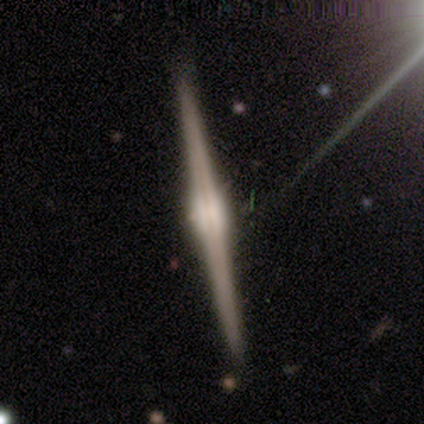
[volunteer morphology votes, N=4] Smooth or featured?
  - smooth: 50% * (tied)
  - featured or disk: 50% * (tied)
  - star or artifact: 0%
How rounded?
  - cigar-shaped: 100% *
  - round: 0%
  - in between: 0%
Merging?
  - none: 75% *
  - minor disturbance: 25%
  - major disturbance: 0%
  - merger: 0%